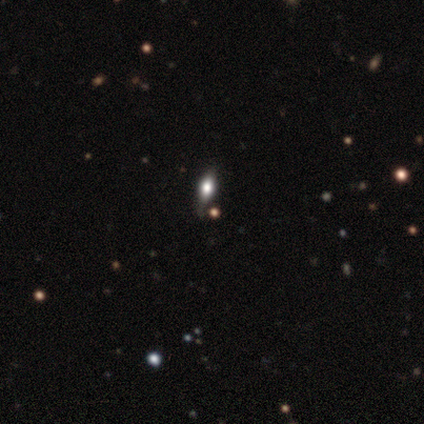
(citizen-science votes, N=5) smooth-or-featured: smooth: 60% | star or artifact: 40% | featured or disk: 0%
  how-rounded: cigar-shaped: 67% | in between: 33% | round: 0%
  merging: none: 67% | minor disturbance: 33% | major disturbance: 0% | merger: 0%